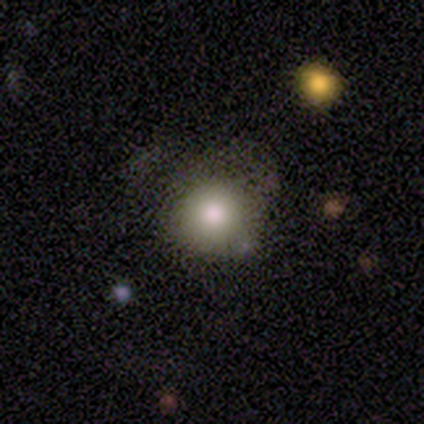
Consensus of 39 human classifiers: smooth-or-featured: smooth: 77% | star or artifact: 15% | featured or disk: 8%
  how-rounded: round: 87% | in between: 10% | cigar-shaped: 3%
  merging: none: 73% | major disturbance: 12% | minor disturbance: 9% | merger: 6%